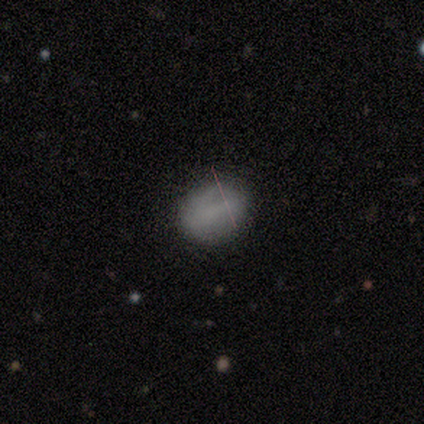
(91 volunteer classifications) smooth-or-featured: smooth: 73% | star or artifact: 14% | featured or disk: 13%
  how-rounded: in between: 53% | round: 45% | cigar-shaped: 2%
  merging: none: 76% | minor disturbance: 18% | major disturbance: 5% | merger: 1%